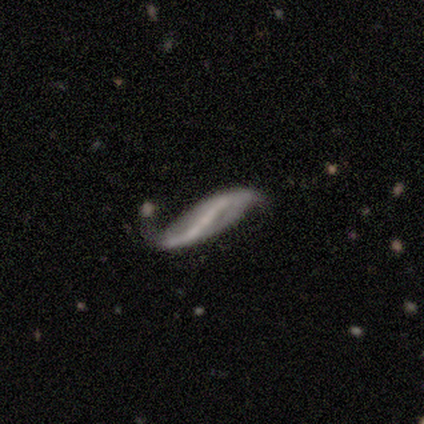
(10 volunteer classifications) Smooth or featured? featured or disk (80%)
Edge-on disk? no (88%)
Bar? strong (43%, tied with no)
Spiral arms? yes (71%)
Spiral winding? loose (100%)
Spiral arm count? 2 (100%)
Bulge size? none (100%)
Merging? none (56%)